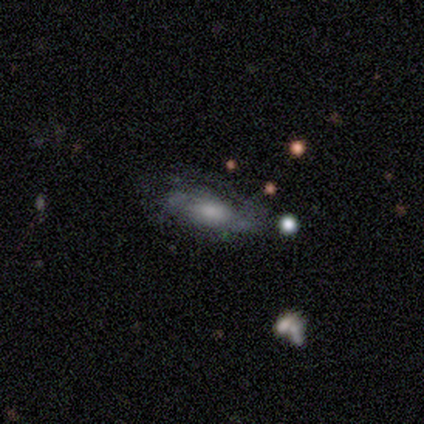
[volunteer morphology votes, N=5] Overall: featured or disk (60%; smooth 40%). Edge-on disk: no (100%). Bar: no (67%; weak 33%). Spiral arms: yes (100%). Spiral arm count: 2 (100%). Spiral winding: medium (67%; tight 33%). Bulge size: small (67%; moderate 33%). Merging: none (100%).